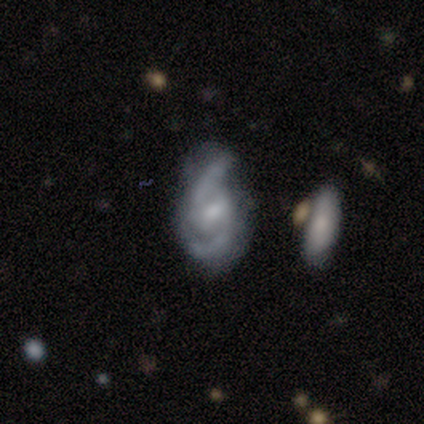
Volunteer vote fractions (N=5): Overall: featured or disk (100%). Edge-on disk: no (100%). Bar: weak (100%). Spiral arms: yes (100%). Spiral arm count: 2 (100%). Spiral winding: medium (80%). Bulge size: small (80%). Merging: none (80%).